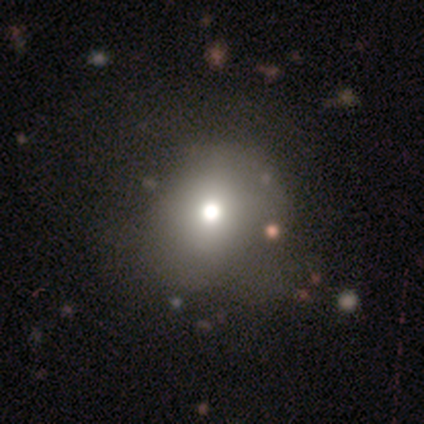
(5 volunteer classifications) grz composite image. It shows a smooth galaxy with no disk features (80%) that is round (50%, tied with in between). Merging: none (50%, tied with minor disturbance).